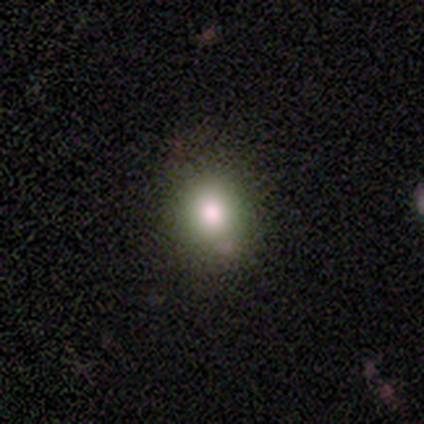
Smooth or featured: smooth — 80% (featured or disk — 20%)
How rounded: round — 100%
Merging: none — 60% (minor disturbance — 20%)